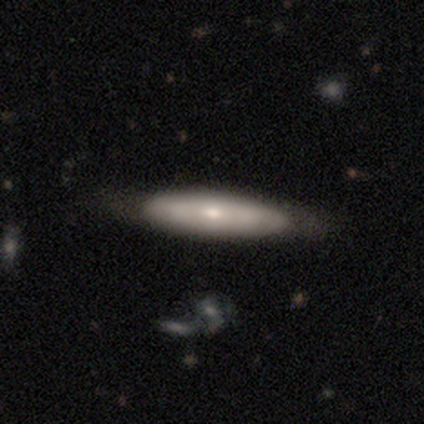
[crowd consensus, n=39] Q: Smooth or featured?
A: smooth (54%); runner-up: featured or disk (44%)
Q: How rounded?
A: cigar-shaped (71%); runner-up: in between (24%)
Q: Merging?
A: none (82%); runner-up: minor disturbance (16%)